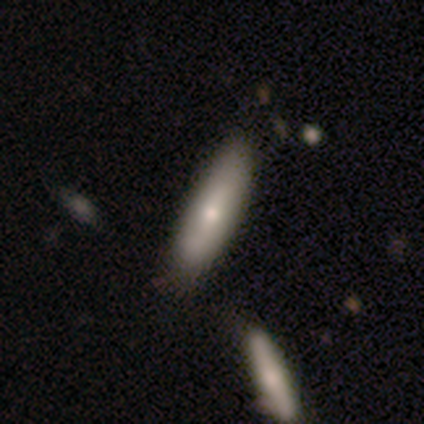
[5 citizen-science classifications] Smooth or featured?
  - smooth: 100% *
  - featured or disk: 0%
  - star or artifact: 0%
How rounded?
  - cigar-shaped: 60% *
  - in between: 40%
  - round: 0%
Merging?
  - none: 80% *
  - minor disturbance: 20%
  - major disturbance: 0%
  - merger: 0%